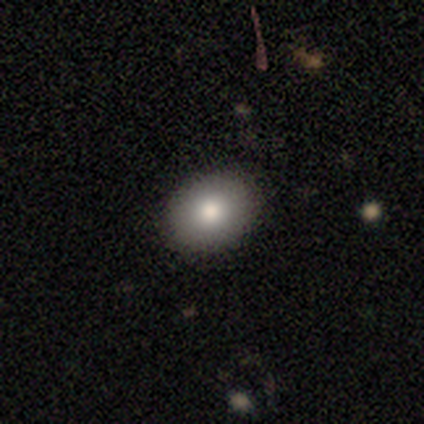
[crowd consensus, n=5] Q: Smooth or featured?
A: smooth (80%); runner-up: featured or disk (20%)
Q: How rounded?
A: in between (100%)
Q: Merging?
A: none (80%); runner-up: major disturbance (20%)